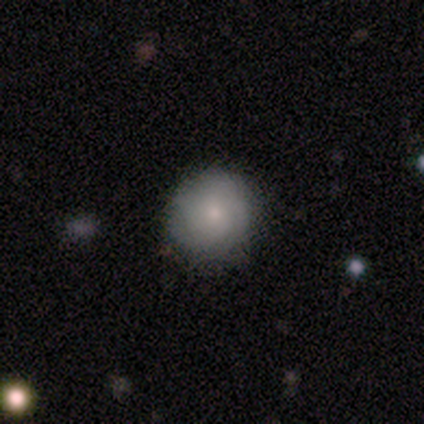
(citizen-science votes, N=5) This is clearly a smooth galaxy (80%). How rounded: likely round (75%). Merging: clearly none (80%).